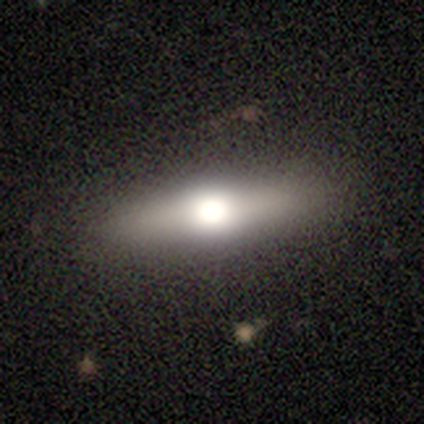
Q: Smooth or featured?
A: smooth (48%); tied with: featured or disk (48%)
Q: How rounded?
A: cigar-shaped (68%); runner-up: in between (32%)
Q: Merging?
A: none (87%); runner-up: minor disturbance (13%)